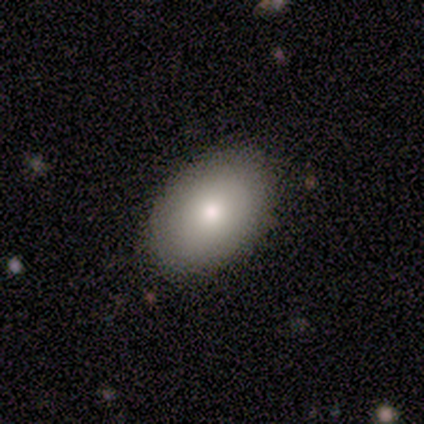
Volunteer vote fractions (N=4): smooth_or_featured: smooth (p=1.00)
how_rounded: in between (p=1.00)
merging: none (p=0.75) [alt: minor disturbance p=0.25]